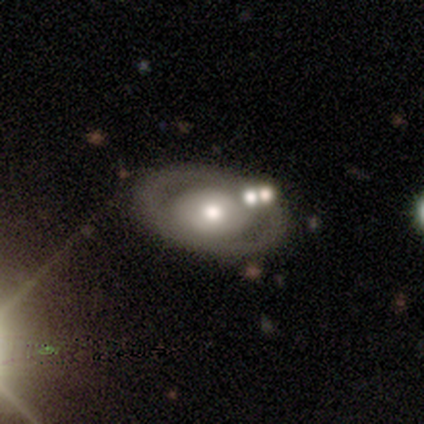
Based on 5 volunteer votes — Smooth or featured: featured or disk — 100%
Edge-on disk: no — 100%
Bar: no — 100%
Spiral arms: no — 100%
Bulge size: moderate — 60% (large — 20%)
Merging: none — 80% (minor disturbance — 20%)